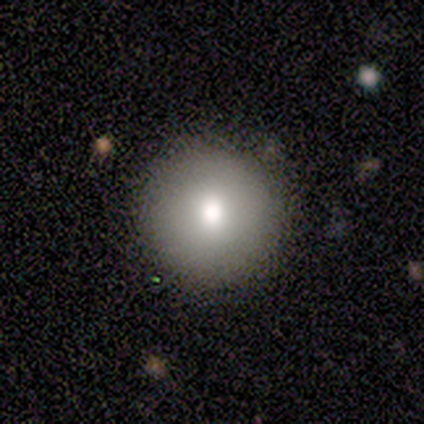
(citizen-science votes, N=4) Q: Smooth or featured?
A: smooth (75%); runner-up: featured or disk (25%)
Q: How rounded?
A: round (100%)
Q: Merging?
A: none (75%); runner-up: minor disturbance (25%)